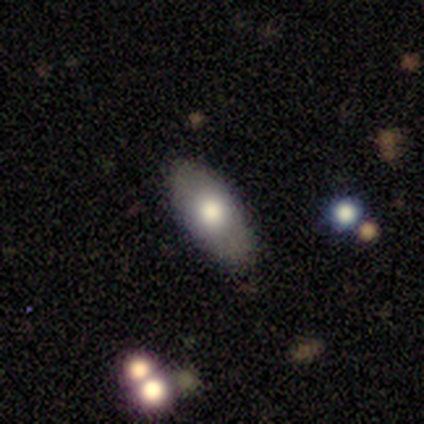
Q: Smooth or featured?
A: smooth (68%); runner-up: featured or disk (29%)
Q: How rounded?
A: in between (85%); runner-up: cigar-shaped (15%)
Q: Merging?
A: none (86%); runner-up: minor disturbance (14%)